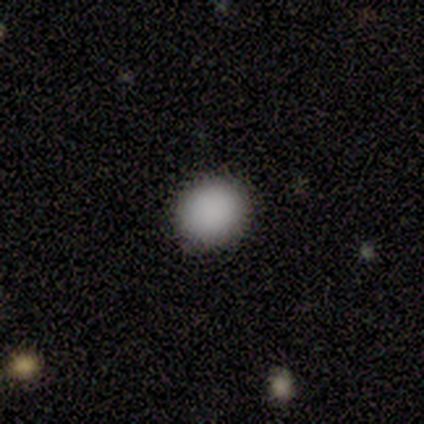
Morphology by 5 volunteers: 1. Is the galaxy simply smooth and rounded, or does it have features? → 100% smooth, 0% featured or disk, 0% star or artifact.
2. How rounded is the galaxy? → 100% round, 0% in between, 0% cigar-shaped.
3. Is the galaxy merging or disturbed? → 80% none, 20% minor disturbance, 0% major disturbance, 0% merger.